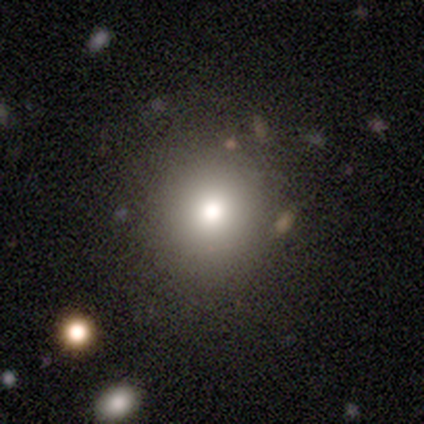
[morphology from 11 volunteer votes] Volunteers were most divided on "merging": none: 80%, minor disturbance: 20%, major disturbance: 0%, merger: 0%. More confident: smooth or featured — smooth (91%); how rounded — round (90%).